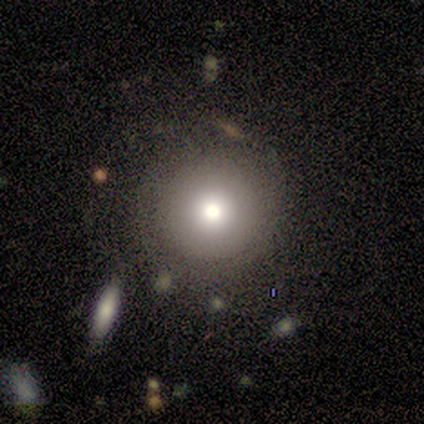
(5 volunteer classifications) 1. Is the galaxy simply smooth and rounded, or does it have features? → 80% smooth, 20% featured or disk, 0% star or artifact.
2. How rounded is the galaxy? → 75% round, 25% in between, 0% cigar-shaped.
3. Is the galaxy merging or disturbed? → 80% none, 20% minor disturbance, 0% major disturbance, 0% merger.